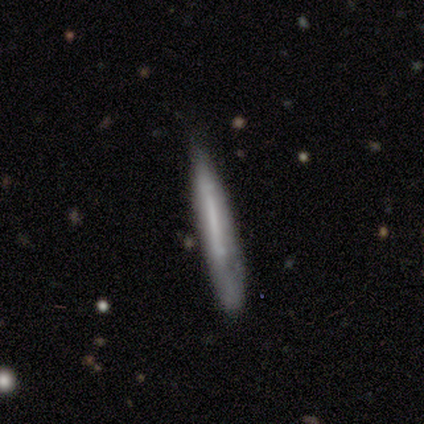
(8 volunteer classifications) Volunteers were most divided on "merging": none: 62%, minor disturbance: 38%, major disturbance: 0%, merger: 0%. More confident: how rounded — cigar-shaped (100%); smooth or featured — smooth (75%).